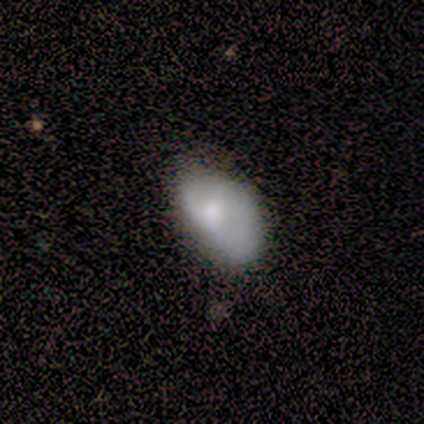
smooth-or-featured: smooth: 83% | featured or disk: 17% | star or artifact: 0%
  how-rounded: in between: 100% | round: 0% | cigar-shaped: 0%
  merging: none: 50% | major disturbance: 33% | minor disturbance: 17% | merger: 0%